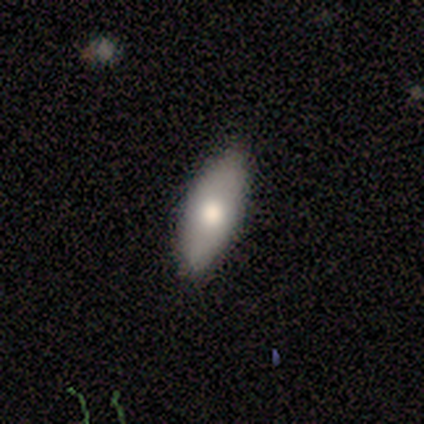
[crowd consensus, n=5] A smooth galaxy with no disk features (80%) that is in between round and cigar-shaped (100%).

Vote fractions:
- Smooth or featured? smooth: 80% / featured or disk: 20% / star or artifact: 0%
- How rounded? in between: 100% / round: 0% / cigar-shaped: 0%
- Merging? none: 100% / minor disturbance: 0% / major disturbance: 0% / merger: 0%